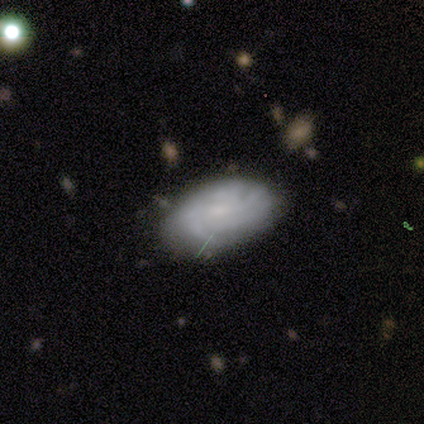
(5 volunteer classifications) featured or disk 60%, smooth 40%, star or artifact 0%. Down the decision tree: edge-on disk — no (100%); bar — no (100%); spiral arms — yes (67%); spiral arm count — can't tell (100%); spiral winding — tight (100%); bulge size — none (67%); merging — none (80%).